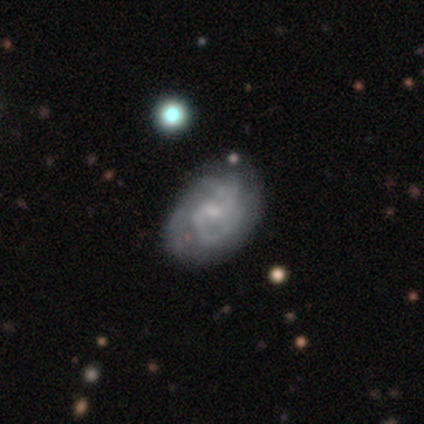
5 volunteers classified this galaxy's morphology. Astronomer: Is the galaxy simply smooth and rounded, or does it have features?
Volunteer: featured or disk — 60% (runner-up: smooth, 40%).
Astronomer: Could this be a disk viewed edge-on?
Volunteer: no — 100%.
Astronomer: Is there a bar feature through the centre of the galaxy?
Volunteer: no — 67%.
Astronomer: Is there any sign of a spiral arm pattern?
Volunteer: yes — 100%.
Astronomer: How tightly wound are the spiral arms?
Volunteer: tight — 33%, tied with medium and loose at 33%.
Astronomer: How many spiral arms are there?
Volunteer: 2 — 67%.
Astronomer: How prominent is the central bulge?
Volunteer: moderate — 67%.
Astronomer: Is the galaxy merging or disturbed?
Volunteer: minor disturbance — 60%.